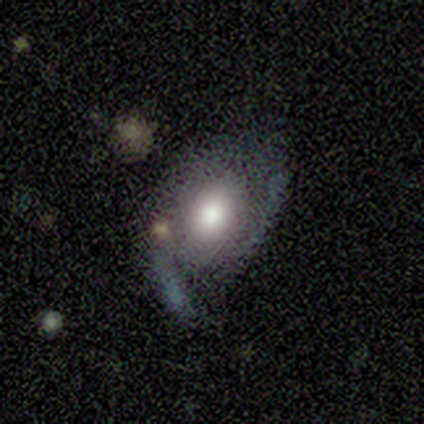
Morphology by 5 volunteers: Overall: featured or disk (100%). Edge-on disk: no (100%). Bar: no (60%; weak 40%). Spiral arms: yes (100%). Spiral arm count: 2 (80%). Spiral winding: medium (60%; loose 40%). Bulge size: large (60%; moderate 40%). Merging: none (80%).